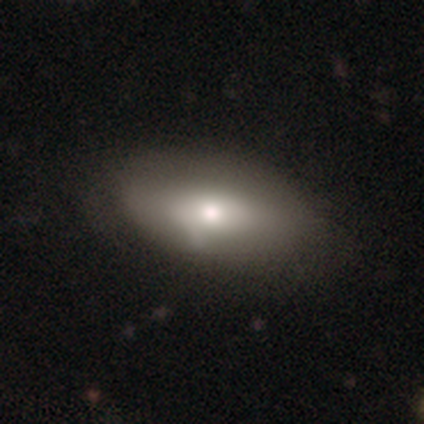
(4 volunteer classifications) Smooth or featured: featured or disk — 75% (smooth — 25%)
Edge-on disk: no — 100%
Bar: strong — 33% (tied with weak — 33%; no — 33%)
Spiral arms: no — 67% (yes — 33%)
Bulge size: moderate — 67% (small — 33%)
Merging: none — 100%